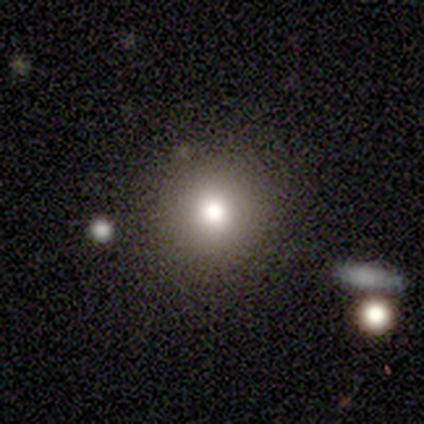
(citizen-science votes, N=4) This appears to be a smooth galaxy with no disk features (50%, tied with featured or disk) that is round (100%). Merging: none (100%).